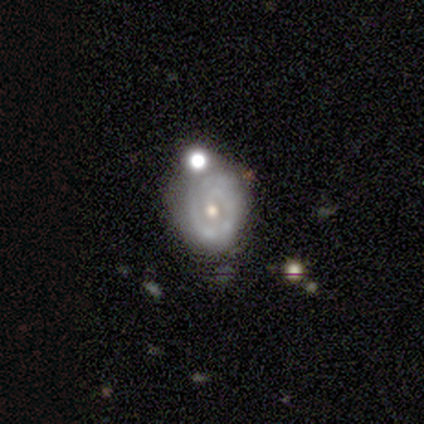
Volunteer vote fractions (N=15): This appears to be a featured or disk galaxy (53%) with no bar (62%), tight (100%) spiral arms (50%, tied with no) and a moderate central bulge (62%). Merging: none (62%).